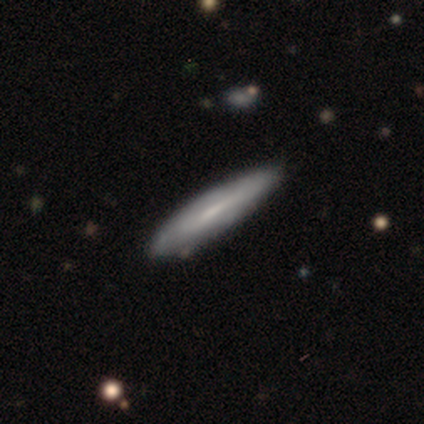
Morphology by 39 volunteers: Smooth or featured?
  - smooth: 49% *
  - featured or disk: 46%
  - star or artifact: 5%
How rounded?
  - cigar-shaped: 84% *
  - in between: 16%
  - round: 0%
Merging?
  - none: 51% *
  - minor disturbance: 16%
  - merger: 8%
  - major disturbance: 0%